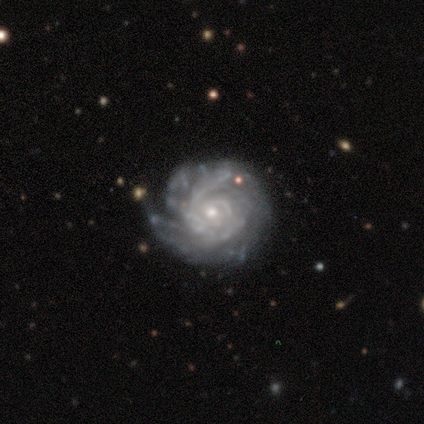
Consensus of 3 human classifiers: Smooth or featured? featured or disk (100%)
Edge-on disk? no (100%)
Bar? no (100%)
Spiral arms? yes (100%)
Spiral winding? medium (67%)
Spiral arm count? can't tell (67%)
Bulge size? small (67%)
Merging? none (33%, tied with minor disturbance and major disturbance)